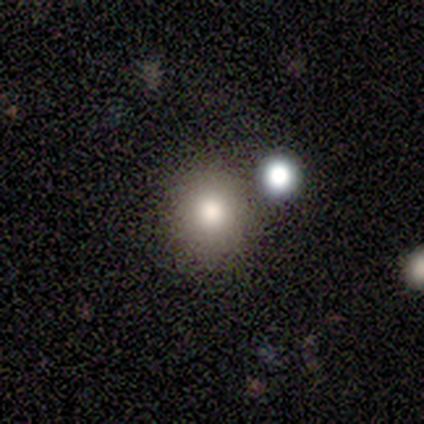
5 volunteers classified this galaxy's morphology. Smooth or featured? 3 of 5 (60%) said smooth. How rounded? 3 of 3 (100%) said round. Merging? 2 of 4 (50%) said merger.